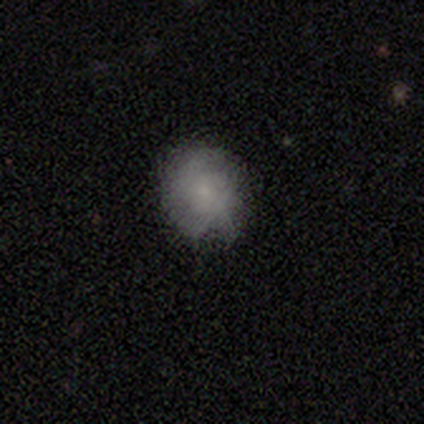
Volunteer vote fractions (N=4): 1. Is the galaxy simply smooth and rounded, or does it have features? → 50% smooth (tied), 50% featured or disk (tied), 0% star or artifact.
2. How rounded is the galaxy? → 100% round, 0% in between, 0% cigar-shaped.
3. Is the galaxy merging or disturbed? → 50% none, 25% minor disturbance, 25% major disturbance, 0% merger.